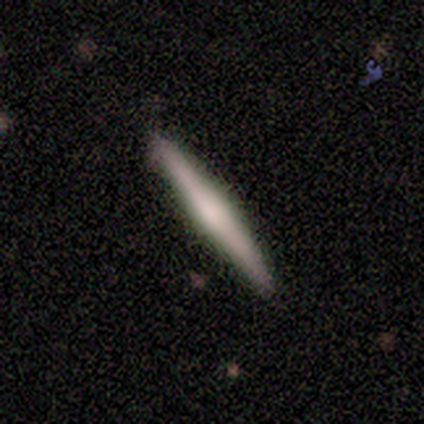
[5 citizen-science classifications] Morphology: type=featured or disk (60%); edge-on=yes (100%); edge-on bulge=rounded (100%); merging=none (80%).